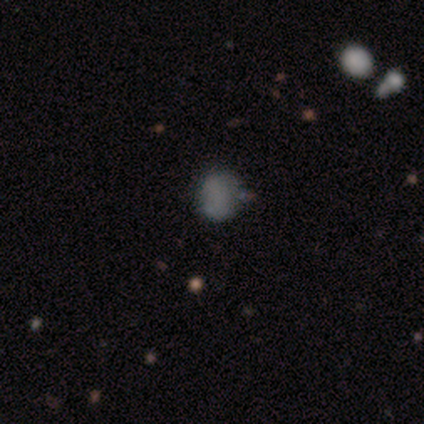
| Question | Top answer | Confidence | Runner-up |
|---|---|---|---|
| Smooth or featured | star or artifact | 60% | smooth (40%) |